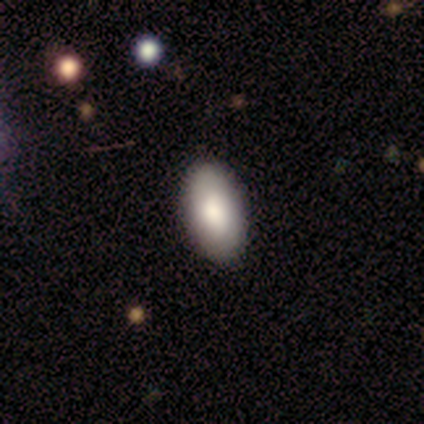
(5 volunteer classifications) smooth_or_featured: smooth (p=1.00)
how_rounded: in between (p=1.00)
merging: none (p=1.00)